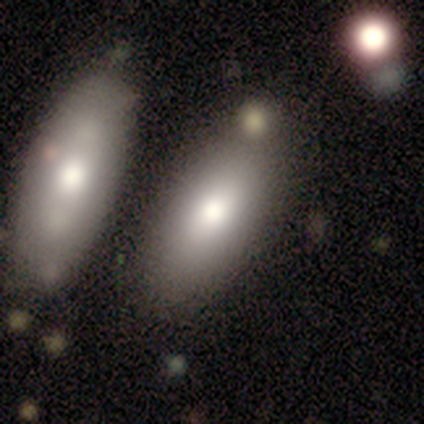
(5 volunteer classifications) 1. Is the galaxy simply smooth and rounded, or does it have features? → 80% smooth, 20% featured or disk, 0% star or artifact.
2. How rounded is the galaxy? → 50% in between (tied), 50% cigar-shaped (tied), 0% round.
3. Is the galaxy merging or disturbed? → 60% none, 20% minor disturbance, 20% merger, 0% major disturbance.